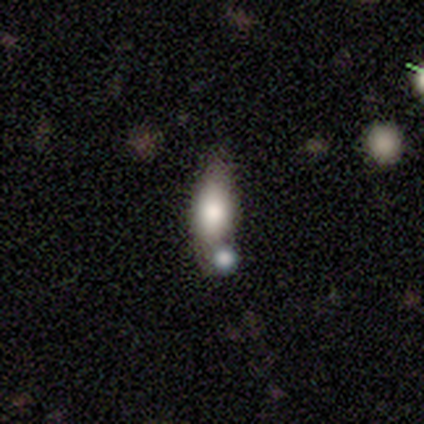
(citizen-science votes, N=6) smooth_or_featured: smooth (p=0.67) [alt: featured or disk p=0.33]
how_rounded: in between (p=1.00)
merging: none (p=0.50) [alt: merger p=0.33]